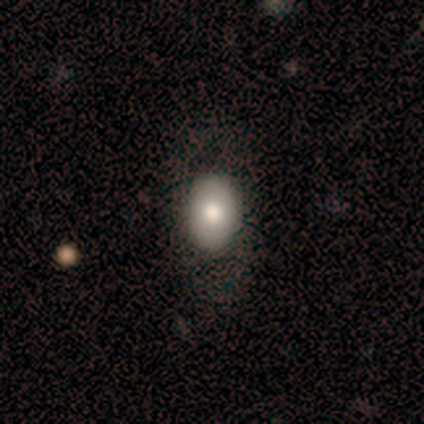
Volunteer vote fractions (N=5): Smooth or featured? smooth (100%)
How rounded? in between (80%)
Merging? none (60%)